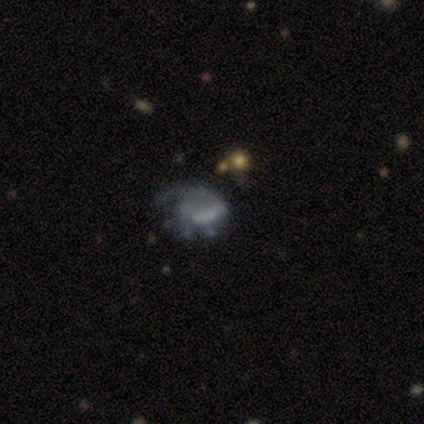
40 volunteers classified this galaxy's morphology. Overall: featured or disk (60%; smooth 35%). Edge-on disk: no (100%). Bar: no (71%). Spiral arms: no (71%). Bulge size: none (96%). Merging: major disturbance (39%; minor disturbance 29%).